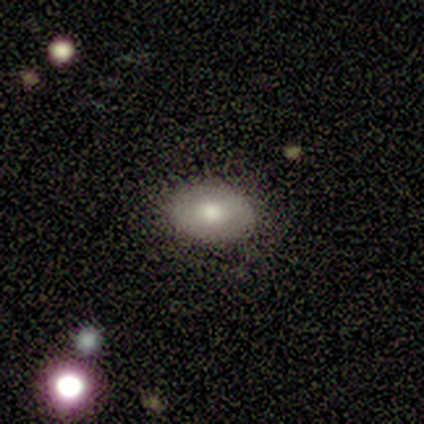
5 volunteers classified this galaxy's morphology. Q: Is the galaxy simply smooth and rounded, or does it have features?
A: smooth — 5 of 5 (100%).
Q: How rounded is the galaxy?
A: in between — 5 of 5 (100%).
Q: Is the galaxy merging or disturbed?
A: none — 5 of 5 (100%).